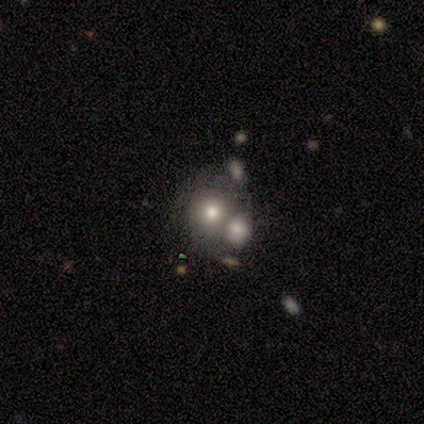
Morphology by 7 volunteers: Q: Smooth or featured?
A: featured or disk (57%); runner-up: smooth (43%)
Q: Edge-on disk?
A: no (75%); runner-up: yes (25%)
Q: Bar?
A: no (100%)
Q: Spiral arms?
A: no (100%)
Q: Bulge size?
A: large (33%); tied with: moderate (33%); small (33%)
Q: Merging?
A: merger (57%); runner-up: none (43%)